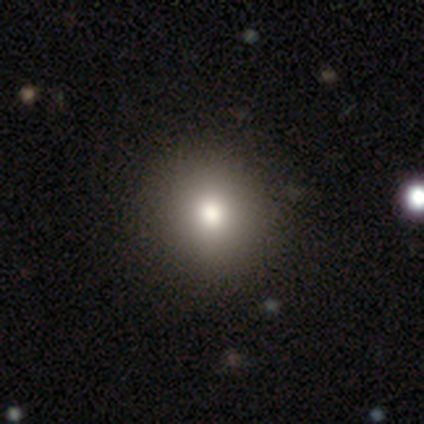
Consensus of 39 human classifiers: This appears to be a smooth galaxy with no disk features (77%) that is round (97%). Merging: none (91%).